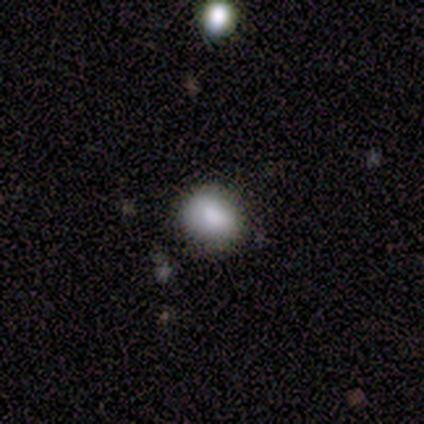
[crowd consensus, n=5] This is clearly a smooth galaxy (80%). How rounded: possibly round (50%, tied with in between). Merging: likely none (60%).